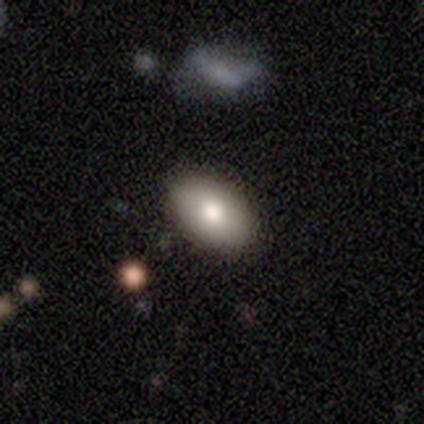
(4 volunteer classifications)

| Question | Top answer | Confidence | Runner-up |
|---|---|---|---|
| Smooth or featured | smooth | 75% | featured or disk (25%) |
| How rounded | in between | 100% | — |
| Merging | none | 100% | — |